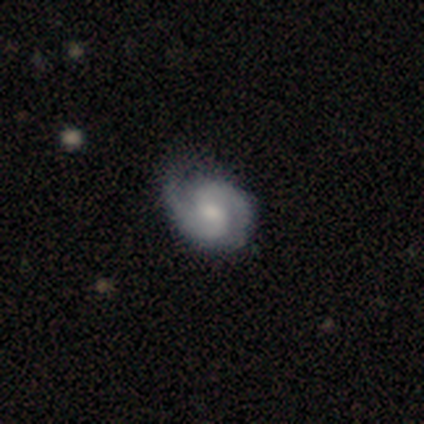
Smooth or featured?
  - featured or disk: 85% *
  - smooth: 10%
  - star or artifact: 5%
Edge-on disk?
  - no: 100% *
  - yes: 0%
Bar?
  - no: 59% *
  - weak: 41%
  - strong: 0%
Spiral arms?
  - yes: 94% *
  - no: 6%
Spiral winding?
  - medium: 50% *
  - tight: 44%
  - loose: 6%
Spiral arm count?
  - 2: 94% *
  - can't tell: 6%
  - 1: 0%
  - 3: 0%
  - 4: 0%
  - more than 4: 0%
Bulge size?
  - moderate: 65% *
  - small: 29%
  - none: 6%
  - dominant: 0%
  - large: 0%
Merging?
  - none: 84% *
  - minor disturbance: 16%
  - major disturbance: 0%
  - merger: 0%